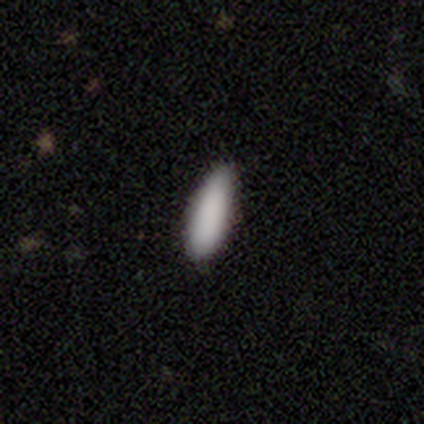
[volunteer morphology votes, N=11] A smooth galaxy with no disk features (100%) that is in between round and cigar-shaped (64%). Merging: none (100%).